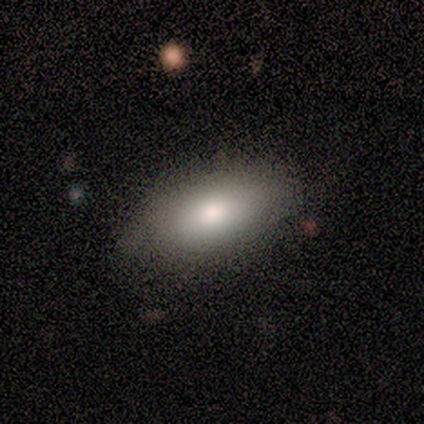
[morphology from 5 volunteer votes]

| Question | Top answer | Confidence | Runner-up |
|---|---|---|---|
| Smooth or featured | smooth | 100% | — |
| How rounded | in between | 80% | cigar-shaped (20%) |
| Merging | none | 80% | minor disturbance (20%) |